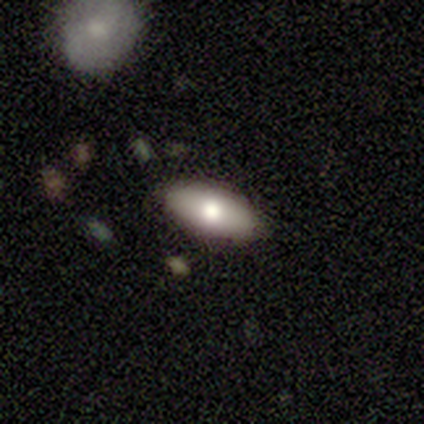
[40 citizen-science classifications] This appears to be a smooth galaxy with no disk features (62%) that is in between round and cigar-shaped (88%). Merging: none (79%).